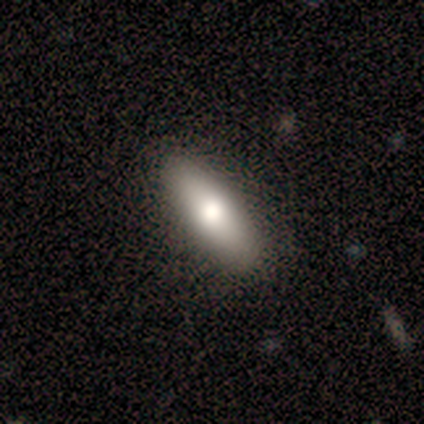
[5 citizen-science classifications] Overall: smooth (100%). How rounded: in between (80%). Merging: none (100%).